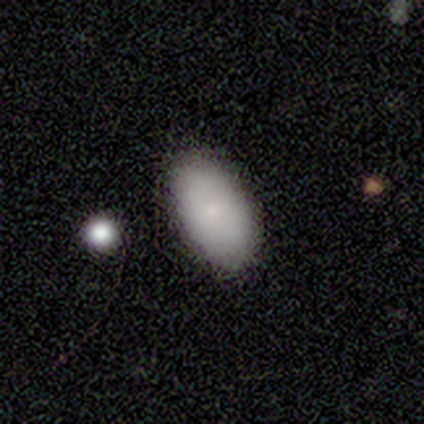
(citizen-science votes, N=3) smooth-or-featured: smooth: 67% | featured or disk: 33% | star or artifact: 0%
  how-rounded: in between: 100% | round: 0% | cigar-shaped: 0%
  merging: minor disturbance: 100% | none: 0% | major disturbance: 0% | merger: 0%